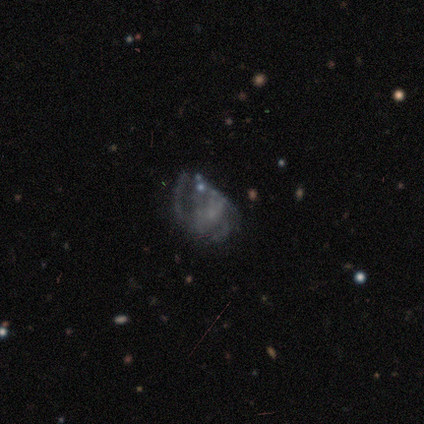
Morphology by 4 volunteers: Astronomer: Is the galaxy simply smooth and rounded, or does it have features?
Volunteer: featured or disk — 50%.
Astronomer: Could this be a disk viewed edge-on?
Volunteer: no — 100%.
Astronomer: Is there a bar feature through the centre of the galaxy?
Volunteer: no — 100%.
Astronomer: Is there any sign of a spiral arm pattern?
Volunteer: yes — 100%.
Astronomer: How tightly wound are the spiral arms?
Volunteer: loose — 100%.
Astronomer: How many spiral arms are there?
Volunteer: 3 — 50%, tied with can't tell at 50%.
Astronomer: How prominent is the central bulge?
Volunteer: small — 100%.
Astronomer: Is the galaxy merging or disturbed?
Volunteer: major disturbance — 67%.